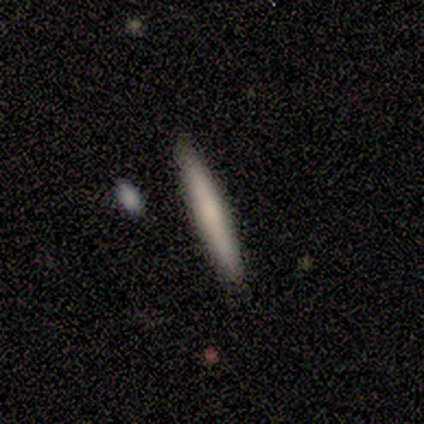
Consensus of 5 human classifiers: Smooth or featured: smooth — 100%
How rounded: cigar-shaped — 100%
Merging: none — 100%